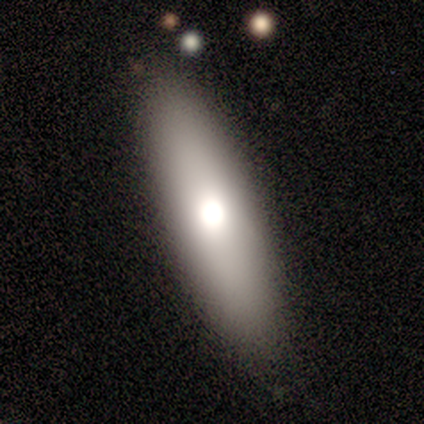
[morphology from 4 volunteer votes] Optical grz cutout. It shows a smooth galaxy with no disk features (50%, tied with featured or disk) that is in between round and cigar-shaped (50%, tied with cigar-shaped). Merging: none (100%).